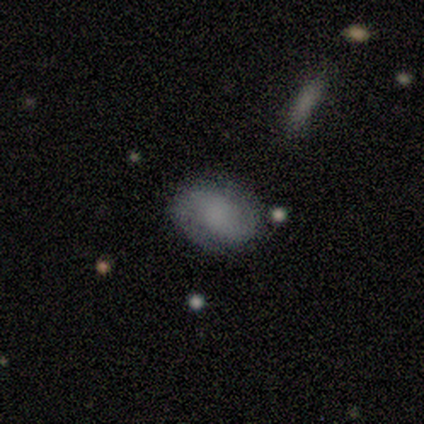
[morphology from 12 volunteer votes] smooth_or_featured: featured or disk (p=0.67) [alt: smooth p=0.17]
disk_edge_on: no (p=0.88) [alt: yes p=0.12]
bar: no (p=0.57) [alt: strong p=0.29]
has_spiral_arms: yes (p=1.00)
spiral_winding: medium (p=0.57) [alt: tight p=0.29]
spiral_arm_count: 2 (p=1.00)
bulge_size: large (p=0.43) [tied with: none p=0.43]
merging: none (p=0.90) [alt: minor disturbance p=0.10]